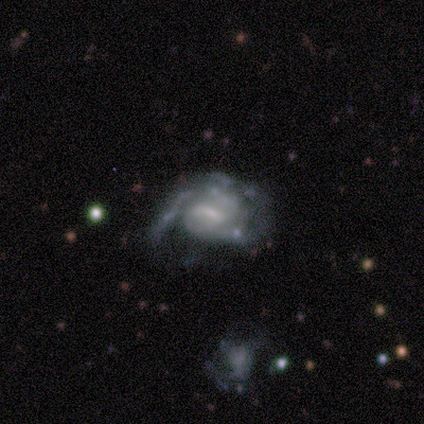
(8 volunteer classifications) Overall: featured or disk (88%). Edge-on disk: no (86%). Bar: strong (67%; weak 33%). Spiral arms: yes (100%). Spiral arm count: 2 (67%). Spiral winding: tight (67%). Bulge size: none (50%; moderate 33%). Merging: minor disturbance (38%, tied with major disturbance).